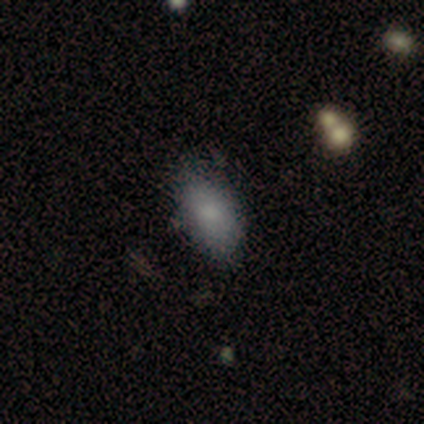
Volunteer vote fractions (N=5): Morphology: type=smooth (60%); roundness=in between (67%); merging=none (75%).